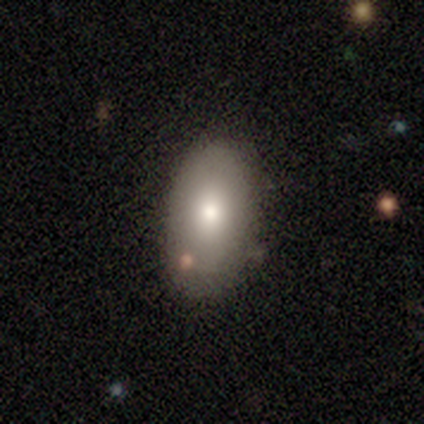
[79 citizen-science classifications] This appears to be a smooth galaxy with no disk features (86%) that is in between round and cigar-shaped (93%). Merging: none (31%).